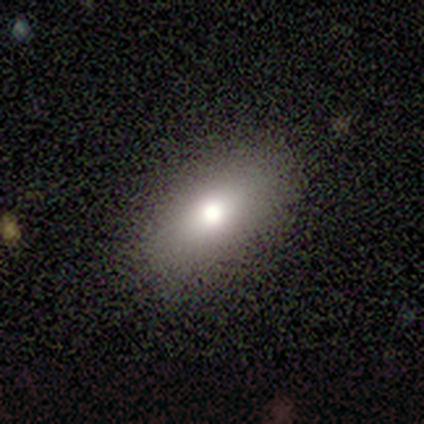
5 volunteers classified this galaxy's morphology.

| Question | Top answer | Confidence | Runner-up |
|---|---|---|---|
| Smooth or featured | smooth | 80% | featured or disk (20%) |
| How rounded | in between | 100% | — |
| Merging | none | 100% | — |